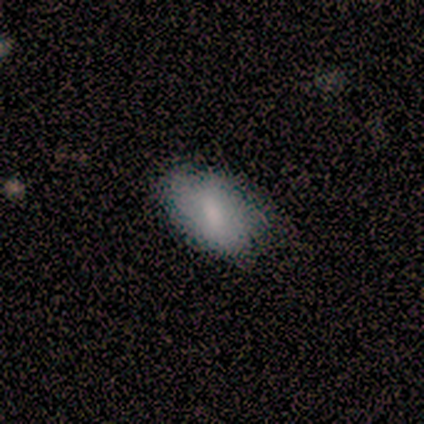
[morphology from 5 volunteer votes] Q: Smooth or featured?
A: smooth (100%)
Q: How rounded?
A: in between (100%)
Q: Merging?
A: none (100%)